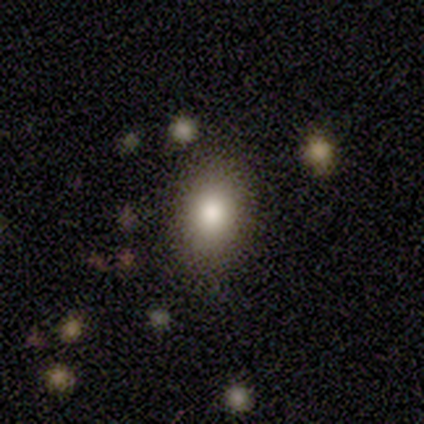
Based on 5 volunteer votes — Overall: smooth (100%). How rounded: in between (80%). Merging: none (80%).